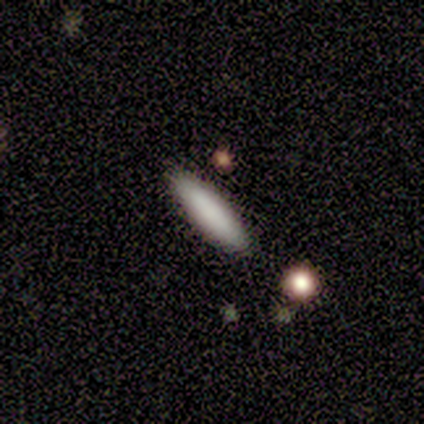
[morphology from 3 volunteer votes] Overall: smooth (33%, tied with featured or disk and star or artifact). How rounded: in between (100%). Merging: none (50%, tied with major disturbance).